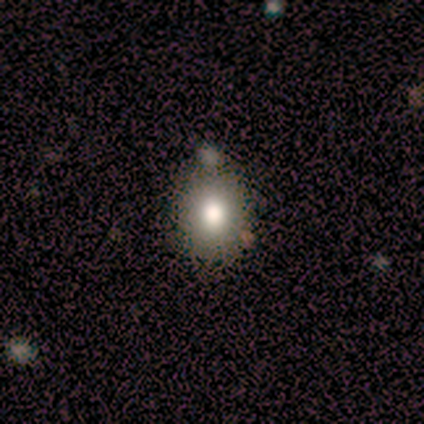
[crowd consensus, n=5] This appears to be a smooth galaxy with no disk features (80%) that is round (75%). Merging: none (75%).